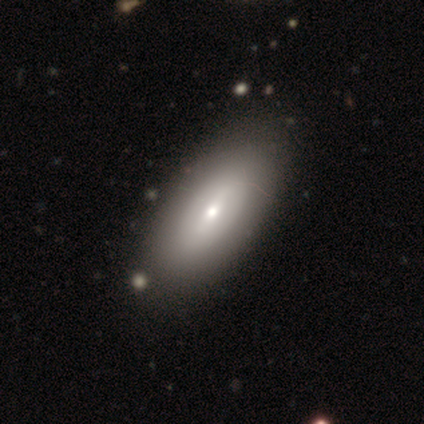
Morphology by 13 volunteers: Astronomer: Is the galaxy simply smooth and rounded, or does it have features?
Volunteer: smooth — 77%.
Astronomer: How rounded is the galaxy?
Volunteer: in between — 80%.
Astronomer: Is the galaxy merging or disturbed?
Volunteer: none — 100%.